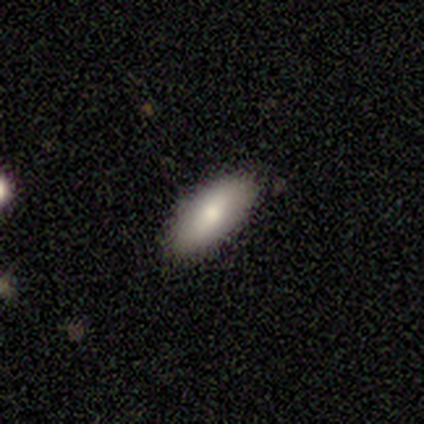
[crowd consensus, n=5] Q: Smooth or featured?
A: smooth (60%); runner-up: featured or disk (20%)
Q: How rounded?
A: in between (67%); runner-up: cigar-shaped (33%)
Q: Merging?
A: none (100%)